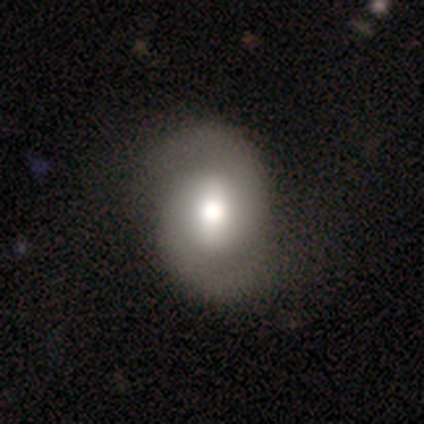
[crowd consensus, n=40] Q: Smooth or featured?
A: featured or disk (75%); runner-up: smooth (25%)
Q: Edge-on disk?
A: no (100%)
Q: Bar?
A: strong (43%); runner-up: no (30%)
Q: Spiral arms?
A: yes (97%); runner-up: no (3%)
Q: Spiral winding?
A: medium (59%); runner-up: loose (31%)
Q: Spiral arm count?
A: 2 (97%); runner-up: can't tell (3%)
Q: Bulge size?
A: moderate (50%); runner-up: large (40%)
Q: Merging?
A: none (52%); runner-up: major disturbance (15%)